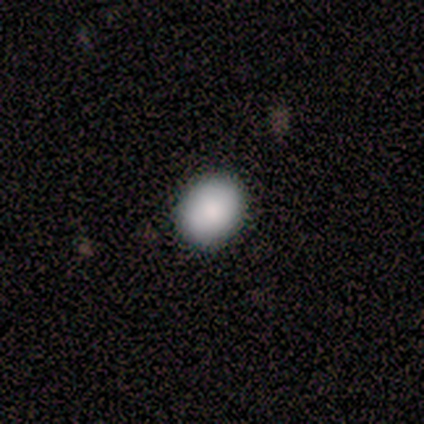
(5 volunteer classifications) Morphology: type=smooth (80%); roundness=round (50%, tied with in between); merging=none (75%).